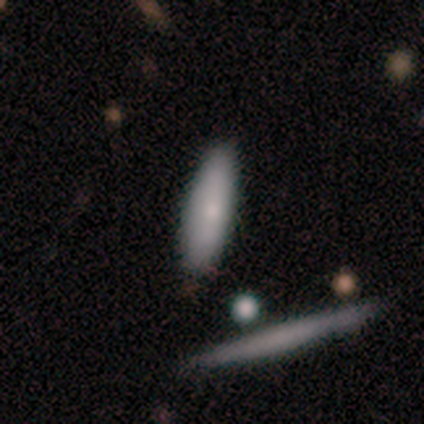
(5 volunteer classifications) Smooth or featured? smooth (80%)
How rounded? cigar-shaped (100%)
Merging? none (100%)